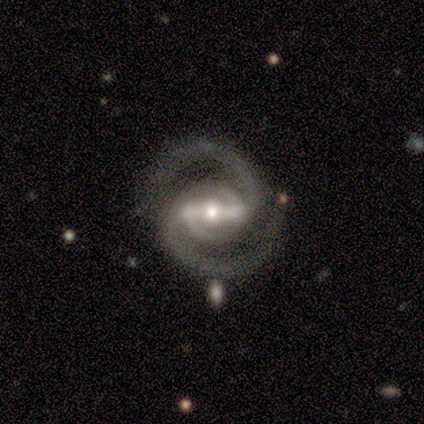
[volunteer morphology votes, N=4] type=featured or disk (50%); edge-on=no (100%); bar=strong (50%, tied with weak); spiral arms=yes (100%); winding=medium (100%); arm count=2 (100%); bulge=moderate (100%); merging=major disturbance (67%).